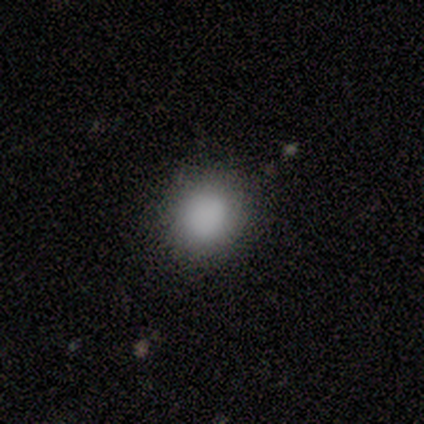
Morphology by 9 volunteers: smooth-or-featured: smooth: 100% | featured or disk: 0% | star or artifact: 0%
  how-rounded: round: 89% | in between: 11% | cigar-shaped: 0%
  merging: none: 89% | minor disturbance: 11% | major disturbance: 0% | merger: 0%